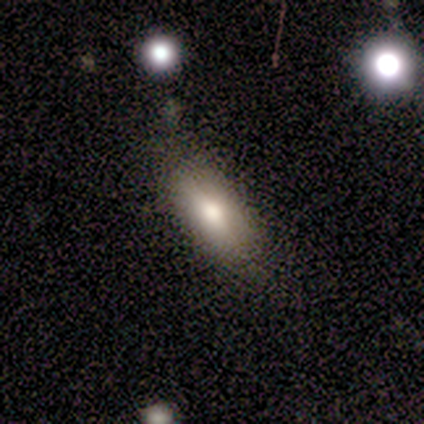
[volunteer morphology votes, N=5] smooth 80%, star or artifact 20%, featured or disk 0%. Down the decision tree: how rounded — in between (50%, tied with cigar-shaped); merging — none (100%).